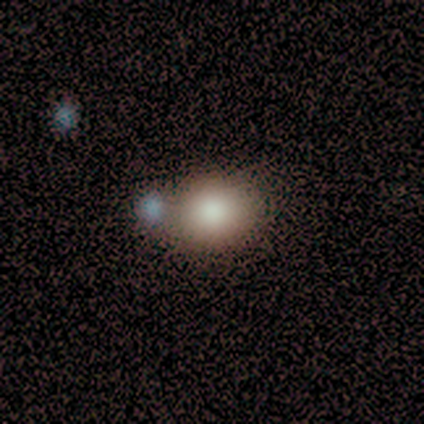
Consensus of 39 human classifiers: This is clearly a smooth galaxy (82%). How rounded: possibly round (59%). Merging: likely none (74%).